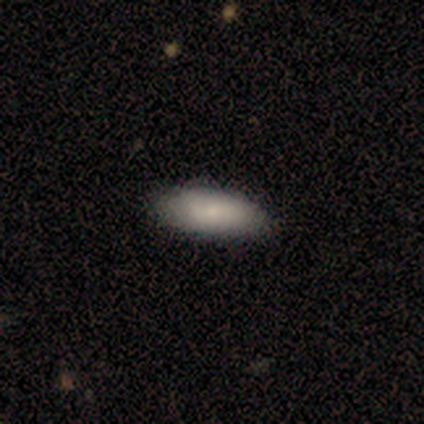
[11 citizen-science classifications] A smooth galaxy with no disk features (100%) that is in between round and cigar-shaped (100%). Merging: none (73%).